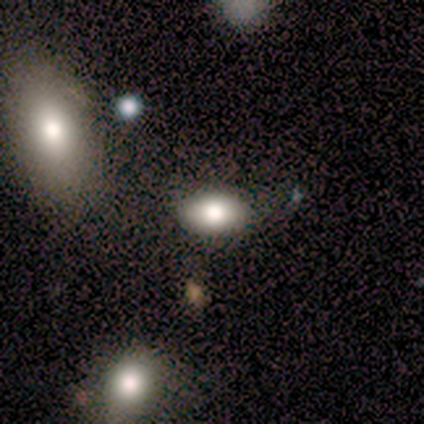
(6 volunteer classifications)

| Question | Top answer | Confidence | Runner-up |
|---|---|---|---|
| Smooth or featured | smooth | 100% | — |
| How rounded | in between | 100% | — |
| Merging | none | 100% | — |